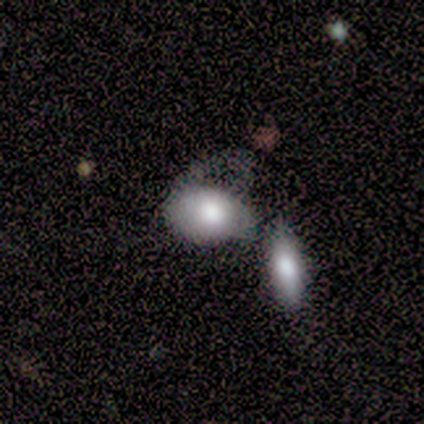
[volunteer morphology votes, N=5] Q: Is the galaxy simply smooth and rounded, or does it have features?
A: smooth — 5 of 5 (100%).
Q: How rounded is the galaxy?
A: in between — 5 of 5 (100%).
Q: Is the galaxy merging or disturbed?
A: merger — 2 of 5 (40%).